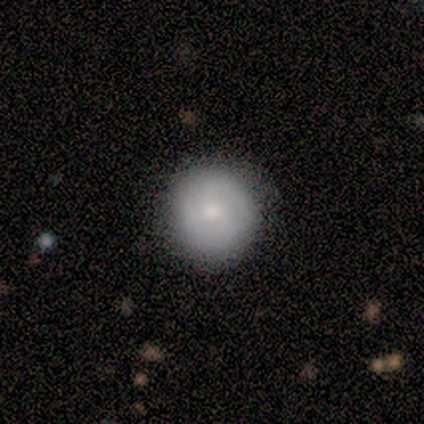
smooth_or_featured: smooth (p=0.57) [alt: featured or disk p=0.43]
how_rounded: round (p=1.00)
merging: none (p=0.57) [alt: minor disturbance p=0.43]